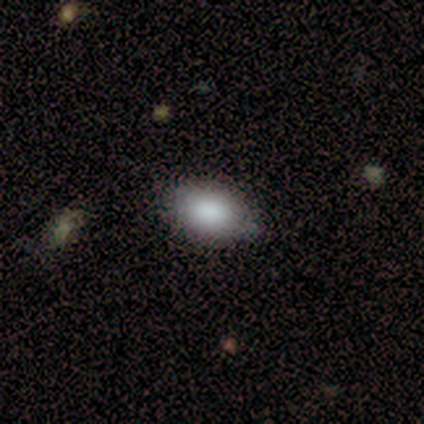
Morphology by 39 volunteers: Overall: smooth (82%). How rounded: in between (84%). Merging: none (79%).